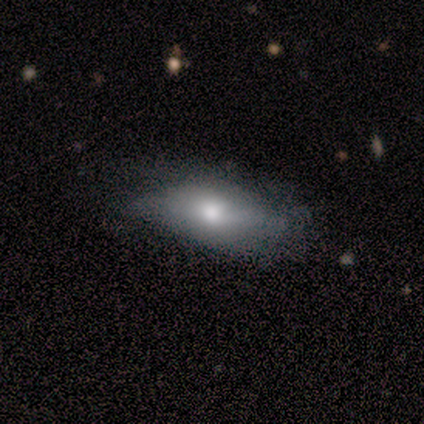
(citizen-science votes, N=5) Overall: smooth (80%). How rounded: in between (100%). Merging: none (40%, tied with minor disturbance).